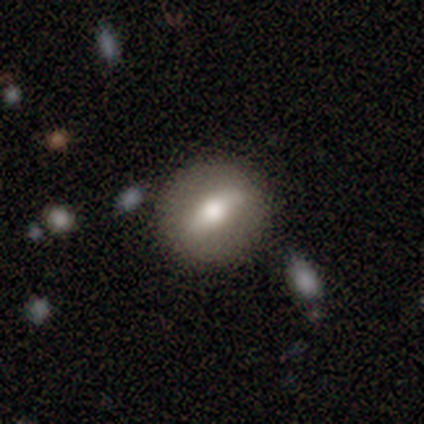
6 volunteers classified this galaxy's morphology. A featured or disk galaxy (67%) with a strong bar (33%, tied with weak and no), no spiral arms (67%) and a moderate central bulge (100%). Merging: none (83%).